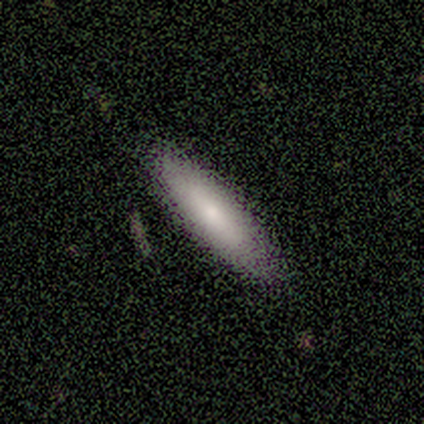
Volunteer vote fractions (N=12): A smooth galaxy with no disk features (75%) that is cigar-shaped (78%). Merging: none (91%).